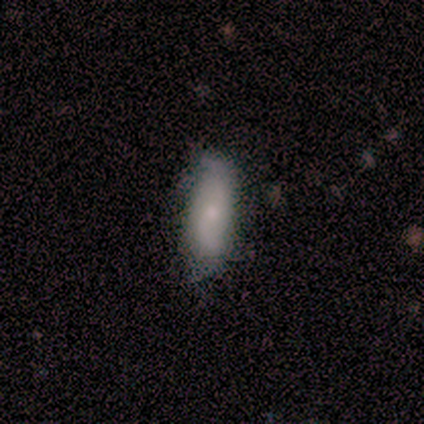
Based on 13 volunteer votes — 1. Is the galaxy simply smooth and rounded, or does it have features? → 54% featured or disk, 46% smooth, 0% star or artifact.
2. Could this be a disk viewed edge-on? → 100% no, 0% yes.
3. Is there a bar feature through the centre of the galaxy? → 57% no, 43% weak, 0% strong.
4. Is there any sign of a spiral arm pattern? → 100% yes, 0% no.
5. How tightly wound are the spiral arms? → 86% loose, 14% medium, 0% tight.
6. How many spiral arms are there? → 100% 2, 0% 1, 0% 3, 0% 4, 0% more than 4, 0% can't tell.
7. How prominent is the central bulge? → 57% moderate, 29% small, 14% none, 0% dominant, 0% large.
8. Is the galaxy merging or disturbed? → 69% none, 31% minor disturbance, 0% major disturbance, 0% merger.